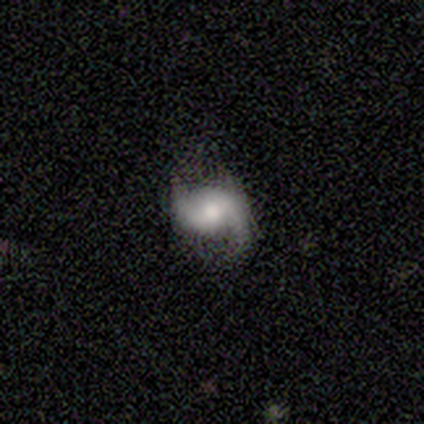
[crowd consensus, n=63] Smooth or featured: featured or disk — 81% (smooth — 14%)
Edge-on disk: no — 100%
Bar: no — 53% (weak — 31%)
Spiral arms: yes — 94% (no — 6%)
Spiral winding: loose — 44% (medium — 33%)
Spiral arm count: 2 — 85% (can't tell — 8%)
Bulge size: moderate — 53% (small — 31%)
Merging: none — 65% (minor disturbance — 25%)